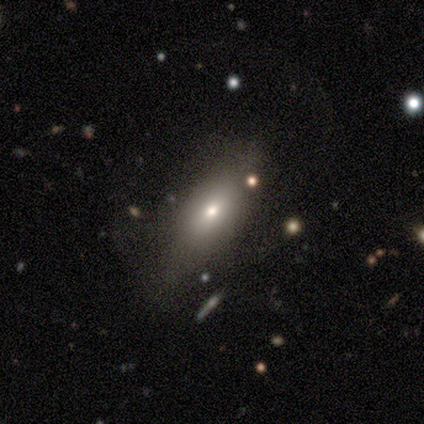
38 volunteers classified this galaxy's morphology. This appears to be a smooth galaxy with no disk features (63%) that is in between round and cigar-shaped (75%). Merging: none (58%).